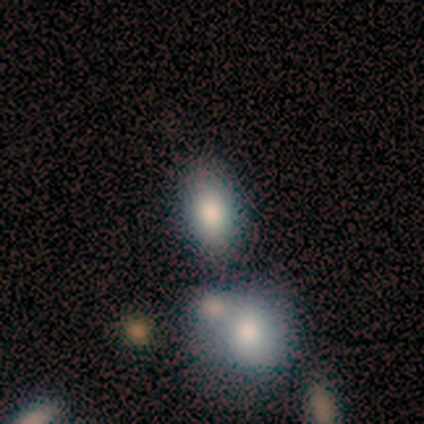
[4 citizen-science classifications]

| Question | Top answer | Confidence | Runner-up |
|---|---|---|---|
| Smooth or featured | smooth | 75% | featured or disk (25%) |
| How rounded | in between | 100% | — |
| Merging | none | 50% | minor disturbance (25%) |